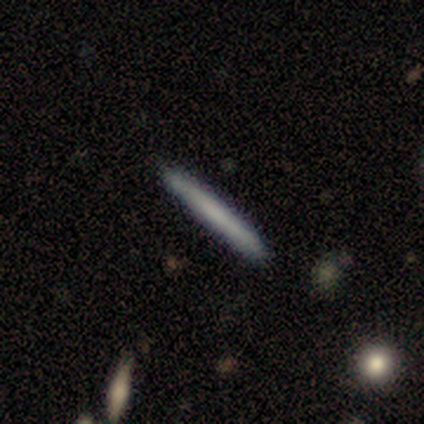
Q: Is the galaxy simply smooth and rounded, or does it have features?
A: smooth — 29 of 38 (76%).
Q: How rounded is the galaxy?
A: cigar-shaped — 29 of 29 (100%).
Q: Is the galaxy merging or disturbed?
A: none — 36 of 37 (97%).